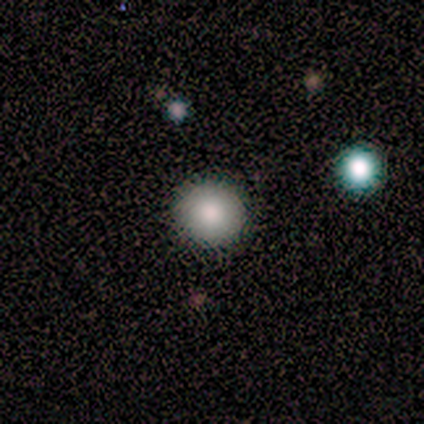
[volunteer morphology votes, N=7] smooth_or_featured: smooth (p=0.71) [alt: featured or disk p=0.29]
how_rounded: round (p=1.00)
merging: none (p=0.86) [alt: minor disturbance p=0.14]